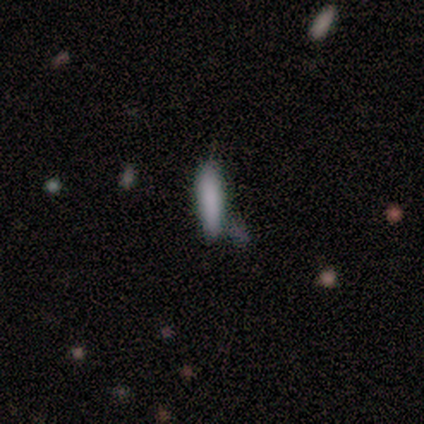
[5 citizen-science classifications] smooth_or_featured: smooth (p=0.80) [alt: star or artifact p=0.20]
how_rounded: cigar-shaped (p=0.75) [alt: in between p=0.25]
merging: none (p=0.50) [tied with: minor disturbance p=0.50]